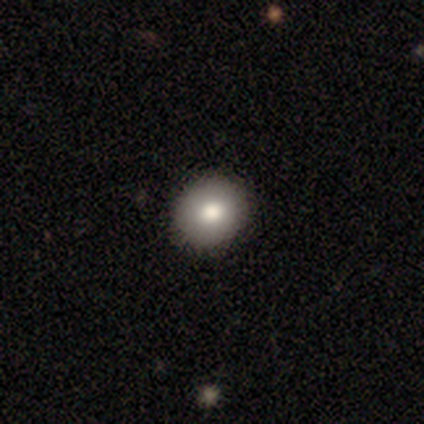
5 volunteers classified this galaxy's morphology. type=smooth (100%); roundness=round (100%); merging=none (80%).